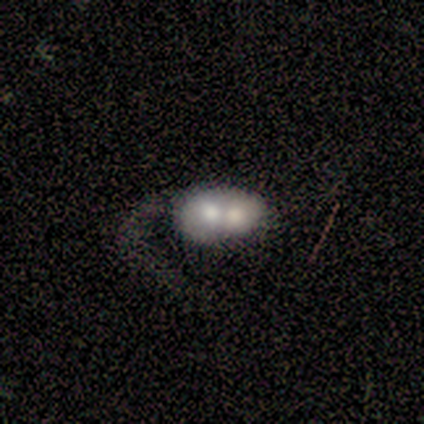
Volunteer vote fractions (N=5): Smooth or featured? 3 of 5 (60%) said smooth. How rounded? 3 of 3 (100%) said in between. Merging? 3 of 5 (60%) said merger.